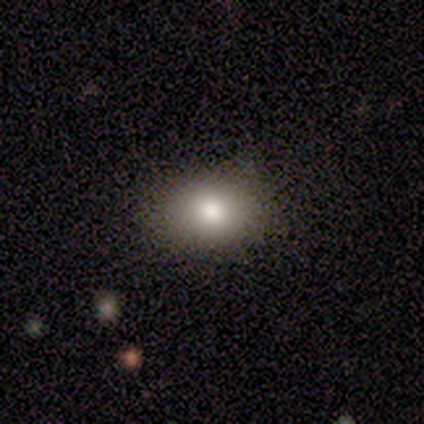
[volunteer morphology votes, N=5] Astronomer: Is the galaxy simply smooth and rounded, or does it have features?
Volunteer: smooth — 60%.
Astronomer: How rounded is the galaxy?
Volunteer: in between — 67%.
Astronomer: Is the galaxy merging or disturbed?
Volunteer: none — 100%.